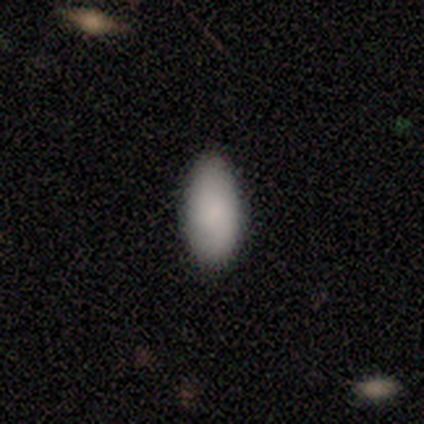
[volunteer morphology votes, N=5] smooth-or-featured: smooth: 100% | featured or disk: 0% | star or artifact: 0%
  how-rounded: in between: 80% | cigar-shaped: 20% | round: 0%
  merging: none: 100% | minor disturbance: 0% | major disturbance: 0% | merger: 0%